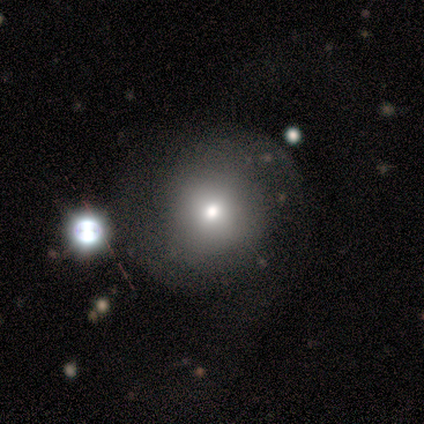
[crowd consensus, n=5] Smooth or featured? 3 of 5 (60%) said smooth. How rounded? 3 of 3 (100%) said round. Merging? 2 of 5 (40%) said none.